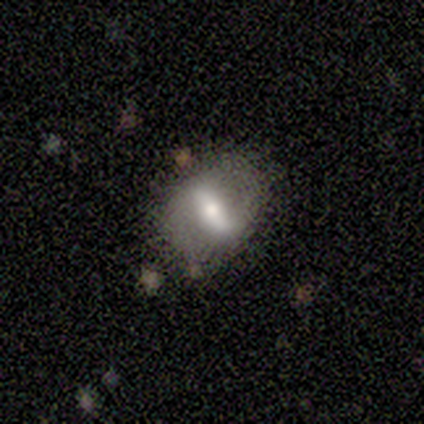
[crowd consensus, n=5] Smooth or featured?
  - featured or disk: 60% *
  - smooth: 40%
  - star or artifact: 0%
Edge-on disk?
  - no: 100% *
  - yes: 0%
Bar?
  - strong: 33% * (tied)
  - weak: 33% * (tied)
  - no: 33% * (tied)
Spiral arms?
  - no: 67% *
  - yes: 33%
Bulge size?
  - moderate: 100% *
  - dominant: 0%
  - large: 0%
  - small: 0%
  - none: 0%
Merging?
  - none: 60% *
  - minor disturbance: 20%
  - major disturbance: 20%
  - merger: 0%